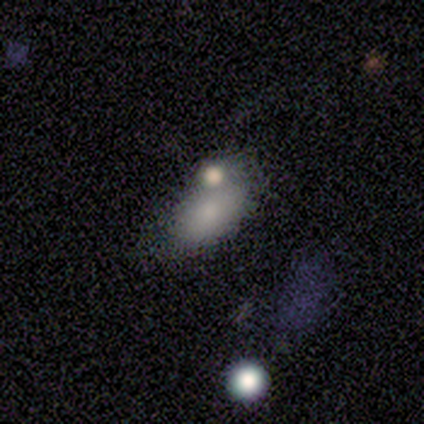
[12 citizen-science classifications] A smooth galaxy with no disk features (58%) that is in between round and cigar-shaped (86%). Merging: merger (50%).